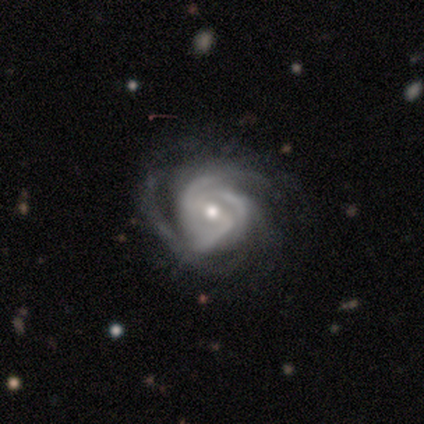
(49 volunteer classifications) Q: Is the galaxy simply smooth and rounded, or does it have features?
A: featured or disk — 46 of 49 (94%).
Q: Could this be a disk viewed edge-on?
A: no — 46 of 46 (100%).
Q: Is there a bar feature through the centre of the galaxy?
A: weak — 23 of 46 (50%).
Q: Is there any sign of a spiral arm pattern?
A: yes — 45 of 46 (98%).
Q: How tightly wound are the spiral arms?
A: tight — 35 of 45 (78%).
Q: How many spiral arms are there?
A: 3 — 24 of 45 (53%).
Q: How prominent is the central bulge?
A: small — 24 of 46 (52%).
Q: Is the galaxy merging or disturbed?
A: none — 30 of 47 (64%).